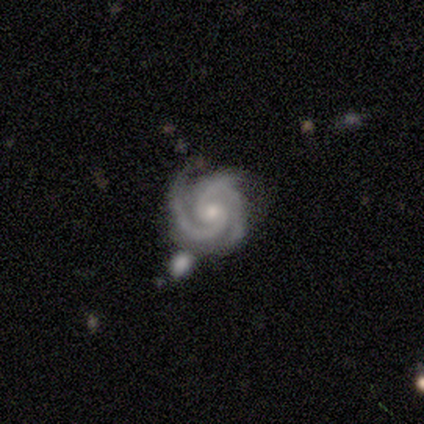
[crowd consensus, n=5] Smooth or featured?
  - featured or disk: 100% *
  - smooth: 0%
  - star or artifact: 0%
Edge-on disk?
  - no: 80% *
  - yes: 20%
Bar?
  - no: 75% *
  - weak: 25%
  - strong: 0%
Spiral arms?
  - yes: 100% *
  - no: 0%
Spiral winding?
  - tight: 50% * (tied)
  - medium: 50% * (tied)
  - loose: 0%
Spiral arm count?
  - 2: 75% *
  - 3: 25%
  - 1: 0%
  - 4: 0%
  - more than 4: 0%
  - can't tell: 0%
Bulge size?
  - small: 75% *
  - moderate: 25%
  - dominant: 0%
  - large: 0%
  - none: 0%
Merging?
  - minor disturbance: 60% *
  - none: 40%
  - major disturbance: 0%
  - merger: 0%